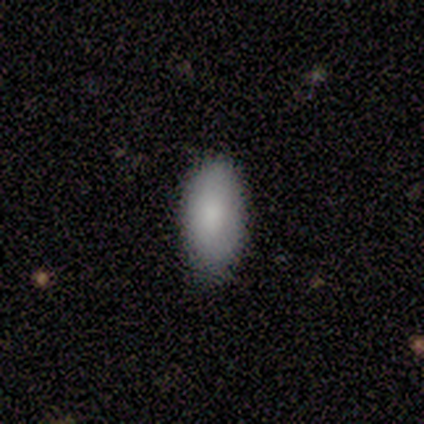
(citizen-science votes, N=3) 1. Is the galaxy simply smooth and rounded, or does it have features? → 100% smooth, 0% featured or disk, 0% star or artifact.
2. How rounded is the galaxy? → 100% in between, 0% round, 0% cigar-shaped.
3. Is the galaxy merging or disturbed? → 67% none, 33% minor disturbance, 0% major disturbance, 0% merger.